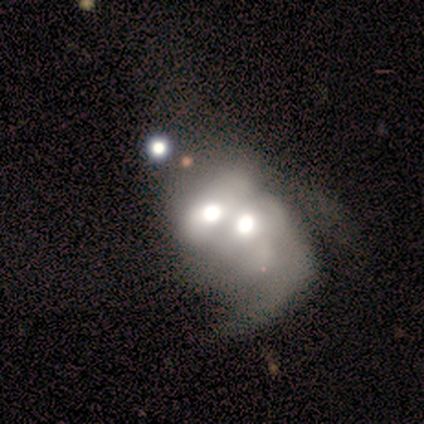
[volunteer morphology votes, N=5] A featured or disk galaxy (80%) with no bar (100%), 1 (50%, tied with 2) loose (100%) spiral arms (50%, tied with no) and a large central bulge (50%, tied with moderate). Merging: merger (100%).